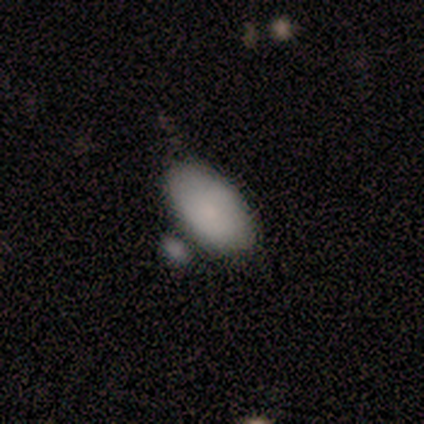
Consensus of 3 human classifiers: This is likely a smooth galaxy (67%). How rounded: clearly in between (100%). Merging: possibly none (50%, tied with merger).